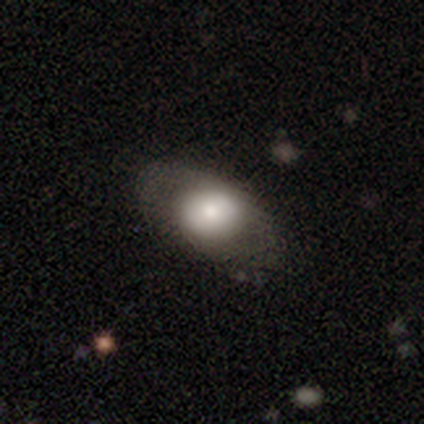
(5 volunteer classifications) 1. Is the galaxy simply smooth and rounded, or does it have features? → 80% smooth, 20% featured or disk, 0% star or artifact.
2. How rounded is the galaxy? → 50% round (tied), 50% in between (tied), 0% cigar-shaped.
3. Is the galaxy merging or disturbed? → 100% none, 0% minor disturbance, 0% major disturbance, 0% merger.